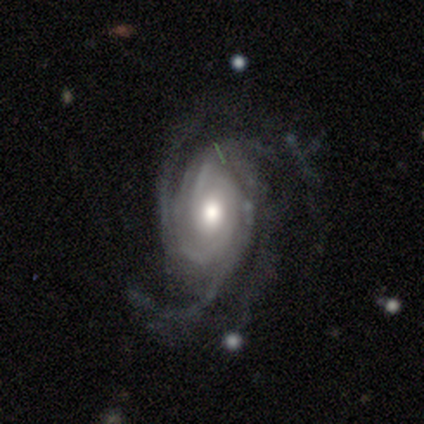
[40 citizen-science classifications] Smooth or featured? 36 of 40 (90%) said featured or disk. Edge-on disk? 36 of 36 (100%) said no. Bar? 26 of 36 (72%) said no. Spiral arms? 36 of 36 (100%) said yes. Spiral winding? 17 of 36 (47%, tied with medium) said tight. Spiral arm count? 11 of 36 (31%) said 4. Bulge size? 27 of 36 (75%) said moderate. Merging? 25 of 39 (64%) said none.